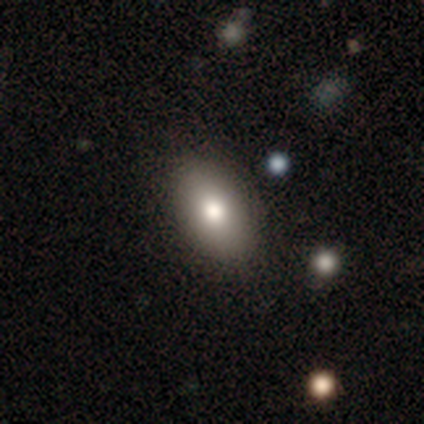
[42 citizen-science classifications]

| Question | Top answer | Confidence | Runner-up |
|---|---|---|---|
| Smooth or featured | smooth | 71% | featured or disk (21%) |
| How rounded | in between | 93% | round (3%) |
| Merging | none | 90% | minor disturbance (8%) |